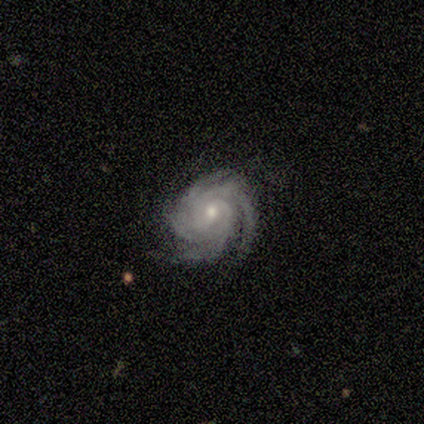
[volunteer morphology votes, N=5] Smooth or featured? 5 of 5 (100%) said featured or disk. Edge-on disk? 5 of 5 (100%) said no. Bar? 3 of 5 (60%) said weak. Spiral arms? 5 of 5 (100%) said yes. Spiral winding? 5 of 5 (100%) said tight. Spiral arm count? 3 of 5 (60%) said more than 4. Bulge size? 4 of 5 (80%) said small. Merging? 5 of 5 (100%) said none.